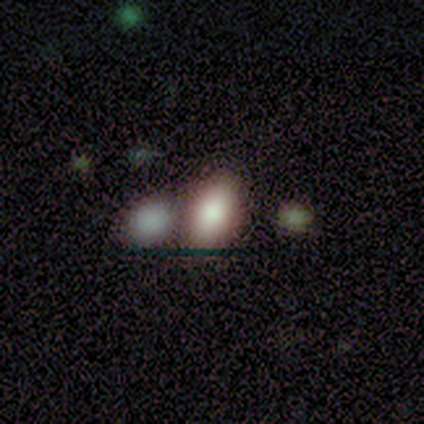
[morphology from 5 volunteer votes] Q: Smooth or featured?
A: smooth (80%); runner-up: featured or disk (20%)
Q: How rounded?
A: in between (100%)
Q: Merging?
A: merger (60%); runner-up: none (40%)